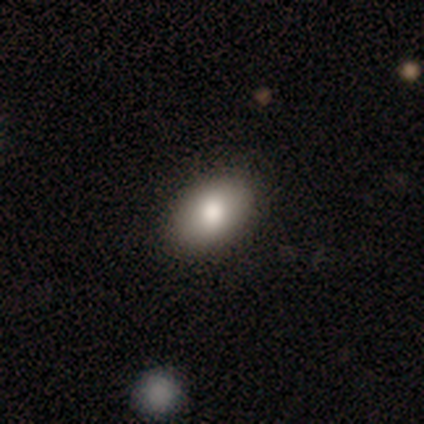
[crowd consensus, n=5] smooth-or-featured: featured or disk: 60% | smooth: 40% | star or artifact: 0%
  disk-edge-on: no: 67% | yes: 33%
    bar: no: 100% | strong: 0% | weak: 0%
    has-spiral-arms: no: 100% | yes: 0%
    bulge-size: large: 50% (tied) | moderate: 50% (tied) | dominant: 0% | small: 0% | none: 0%
  merging: none: 80% | minor disturbance: 20% | major disturbance: 0% | merger: 0%